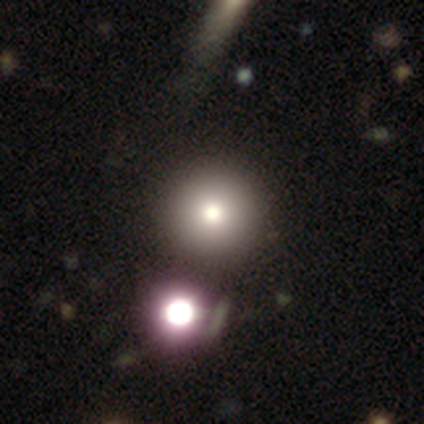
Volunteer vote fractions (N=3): Overall: smooth (67%; star or artifact 33%). How rounded: round (100%). Merging: none (100%).